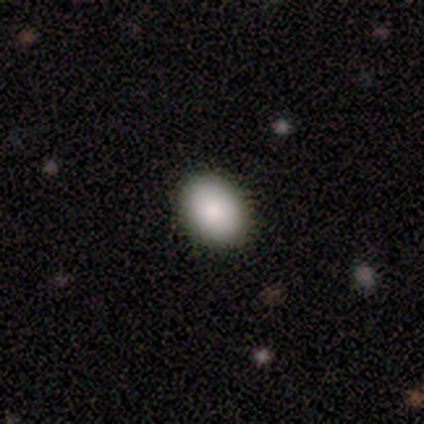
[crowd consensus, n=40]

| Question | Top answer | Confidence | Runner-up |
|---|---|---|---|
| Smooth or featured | smooth | 90% | featured or disk (5%) |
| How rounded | in between | 69% | round (31%) |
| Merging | none | 92% | minor disturbance (5%) |